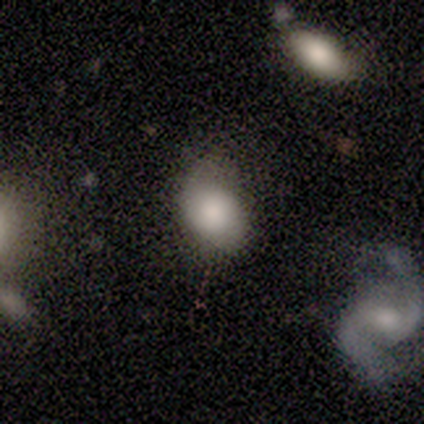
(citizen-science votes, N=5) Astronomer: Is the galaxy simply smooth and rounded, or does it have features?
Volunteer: smooth — 80%.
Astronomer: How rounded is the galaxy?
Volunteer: in between — 75%.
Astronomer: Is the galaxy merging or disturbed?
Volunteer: none — 60%.